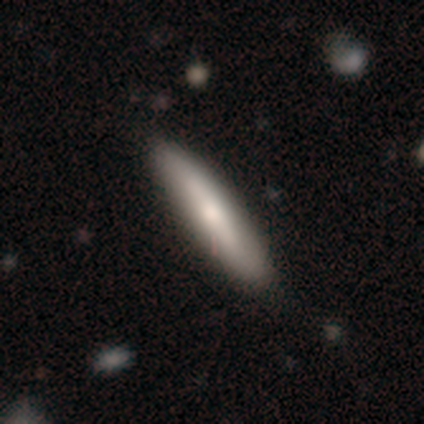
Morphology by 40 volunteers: A smooth galaxy with no disk features (55%) that is cigar-shaped (77%). Merging: none (59%).